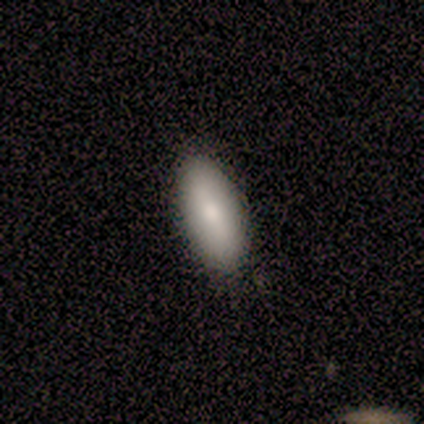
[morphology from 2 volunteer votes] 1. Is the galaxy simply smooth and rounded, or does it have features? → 100% smooth, 0% featured or disk, 0% star or artifact.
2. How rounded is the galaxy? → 100% in between, 0% round, 0% cigar-shaped.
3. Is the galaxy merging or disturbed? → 50% none (tied), 50% minor disturbance (tied), 0% major disturbance, 0% merger.